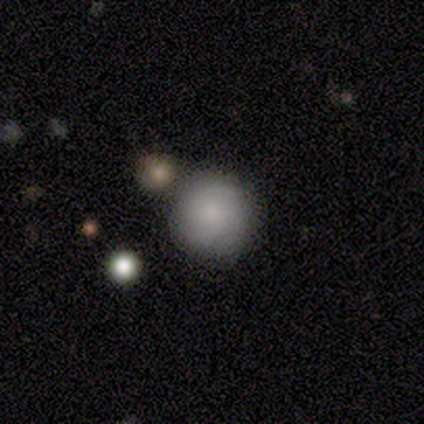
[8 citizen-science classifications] Q: Smooth or featured?
A: smooth (88%); runner-up: featured or disk (12%)
Q: How rounded?
A: round (100%)
Q: Merging?
A: none (75%); runner-up: minor disturbance (12%)